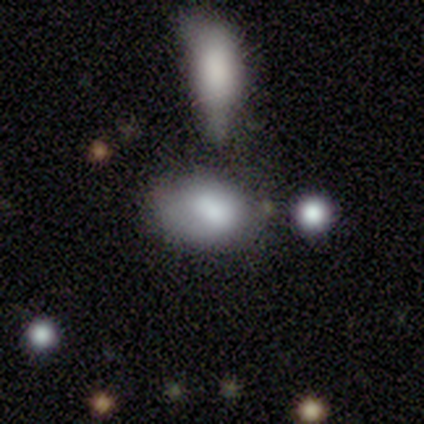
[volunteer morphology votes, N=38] This appears to be a smooth galaxy with no disk features (82%) that is in between round and cigar-shaped (90%). Merging: none (54%).